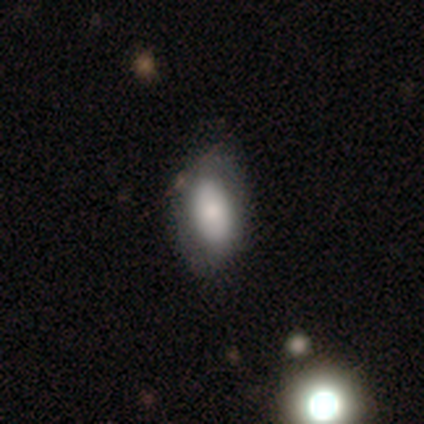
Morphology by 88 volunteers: Smooth or featured?
  - smooth: 62% *
  - featured or disk: 20%
  - star or artifact: 17%
How rounded?
  - in between: 89% *
  - cigar-shaped: 7%
  - round: 4%
Merging?
  - none: 70% *
  - minor disturbance: 26%
  - major disturbance: 4%
  - merger: 0%